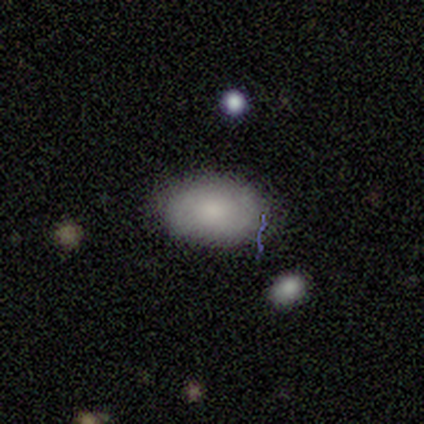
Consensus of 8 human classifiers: Q: Smooth or featured?
A: smooth (88%); runner-up: featured or disk (12%)
Q: How rounded?
A: in between (100%)
Q: Merging?
A: none (75%); runner-up: minor disturbance (25%)